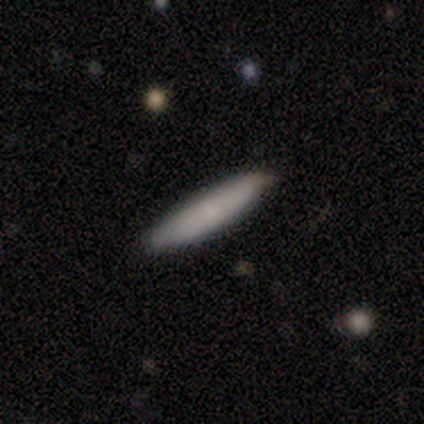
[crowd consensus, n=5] Smooth or featured? smooth (100%)
How rounded? cigar-shaped (100%)
Merging? none (60%)